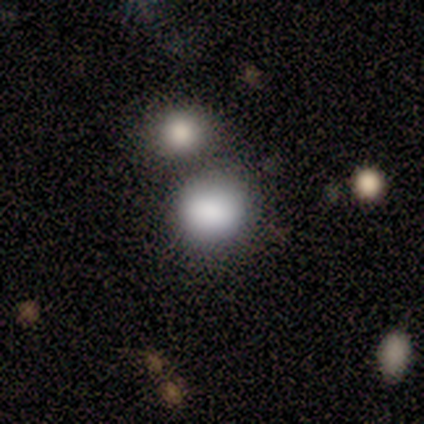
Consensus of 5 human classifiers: Smooth or featured? smooth (80%)
How rounded? round (75%)
Merging? none (75%)